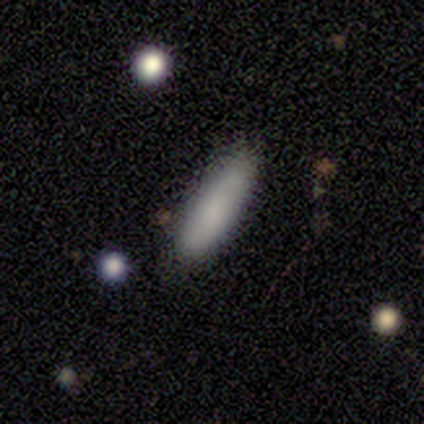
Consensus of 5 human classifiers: A smooth galaxy with no disk features (80%) that is in between round and cigar-shaped (50%, tied with cigar-shaped).

Vote fractions:
- Smooth or featured? smooth: 80% / featured or disk: 20% / star or artifact: 0%
- How rounded? in between: 50% (tied) / cigar-shaped: 50% (tied) / round: 0%
- Merging? none: 60% / minor disturbance: 20% / major disturbance: 20% / merger: 0%